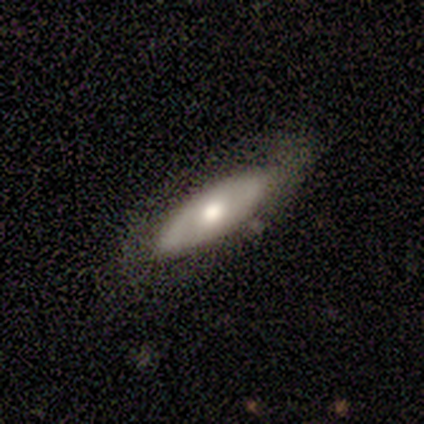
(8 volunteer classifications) Morphology: type=smooth (62%); roundness=in between (80%); merging=none (100%).